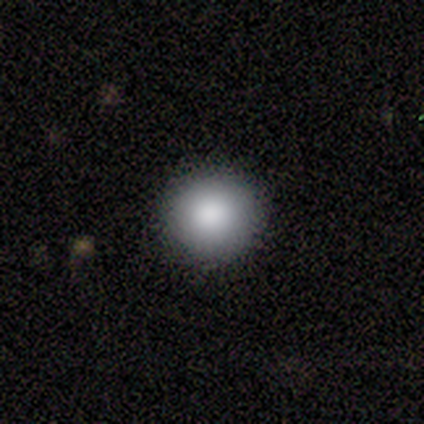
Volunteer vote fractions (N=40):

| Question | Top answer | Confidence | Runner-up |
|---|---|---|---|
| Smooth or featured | smooth | 82% | star or artifact (10%) |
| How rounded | round | 97% | in between (3%) |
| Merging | none | 97% | minor disturbance (3%) |